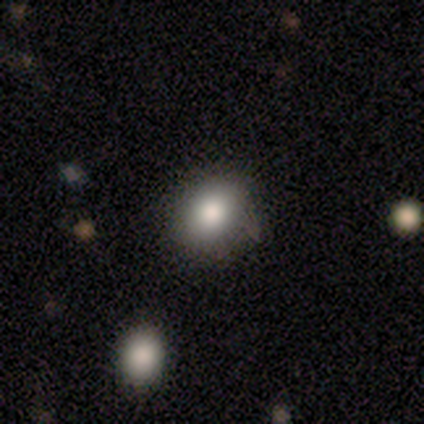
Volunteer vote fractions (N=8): smooth_or_featured: smooth (p=0.75) [alt: featured or disk p=0.12]
how_rounded: round (p=0.50) [tied with: in between p=0.50]
merging: none (p=0.86) [alt: minor disturbance p=0.14]